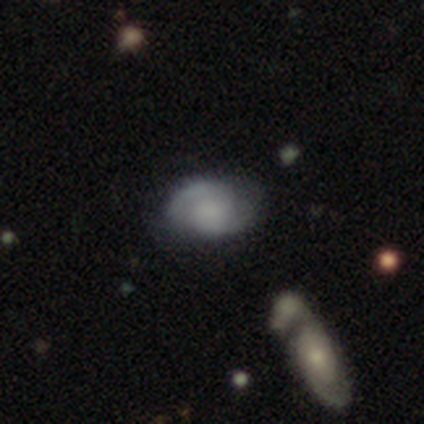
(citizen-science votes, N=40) Overall: smooth (48%; featured or disk 38%). How rounded: in between (100%). Merging: none (59%; minor disturbance 26%).